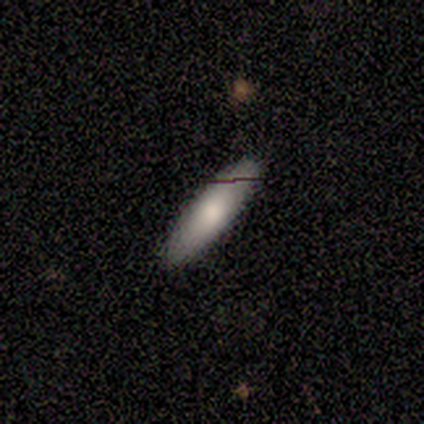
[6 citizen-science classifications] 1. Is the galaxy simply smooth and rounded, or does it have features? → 67% smooth, 17% featured or disk, 17% star or artifact.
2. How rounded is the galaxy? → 50% in between (tied), 50% cigar-shaped (tied), 0% round.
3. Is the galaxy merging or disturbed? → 100% none, 0% minor disturbance, 0% major disturbance, 0% merger.